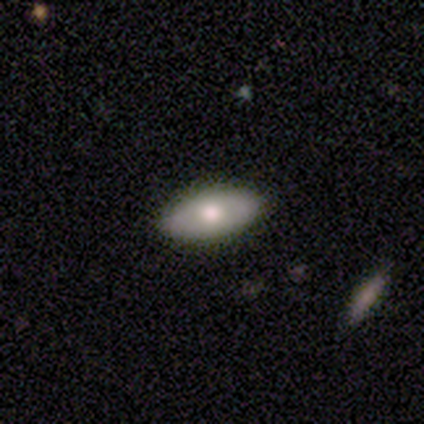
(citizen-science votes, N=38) This appears to be a smooth galaxy with no disk features (71%) that is in between round and cigar-shaped (100%). Merging: none (86%).